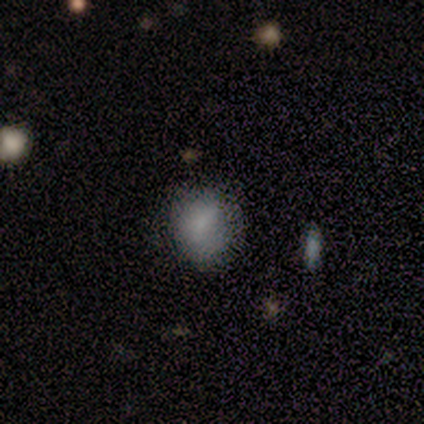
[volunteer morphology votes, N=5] This is clearly a smooth galaxy (100%). How rounded: likely round (60%). Merging: likely none (60%).